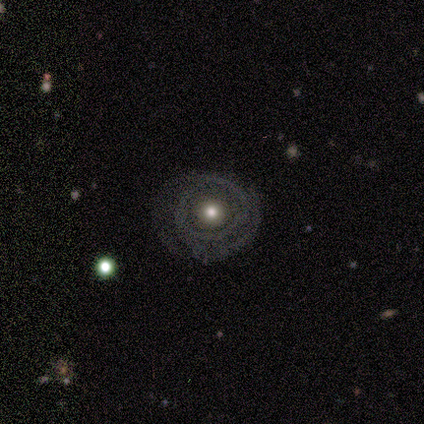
Smooth or featured?
  - featured or disk: 76% *
  - smooth: 17%
  - star or artifact: 7%
Edge-on disk?
  - no: 96% *
  - yes: 4%
Bar?
  - no: 93% *
  - weak: 5%
  - strong: 1%
Spiral arms?
  - yes: 59% *
  - no: 41%
Spiral winding?
  - tight: 68% *
  - medium: 25%
  - loose: 7%
Spiral arm count?
  - 2: 55% *
  - can't tell: 27%
  - 3: 9%
  - 4: 7%
  - 1: 2%
  - more than 4: 0%
Bulge size?
  - moderate: 76% *
  - small: 17%
  - large: 4%
  - dominant: 1%
  - none: 1%
Merging?
  - none: 65% *
  - minor disturbance: 18%
  - major disturbance: 17%
  - merger: 0%